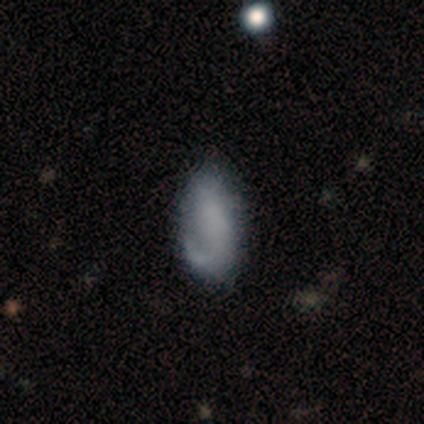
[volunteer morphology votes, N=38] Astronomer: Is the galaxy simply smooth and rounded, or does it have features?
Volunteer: smooth — 55% (runner-up: featured or disk, 39%).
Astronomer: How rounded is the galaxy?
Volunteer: in between — 100%.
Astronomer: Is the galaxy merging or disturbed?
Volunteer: minor disturbance — 50% (runner-up: none, 47%).